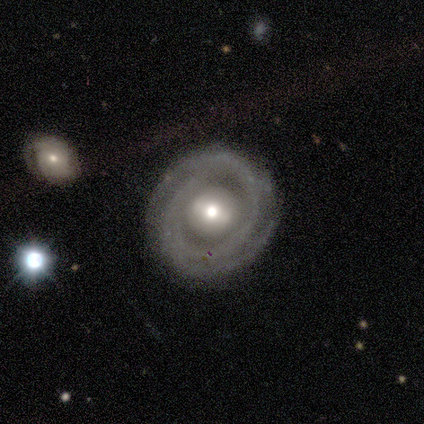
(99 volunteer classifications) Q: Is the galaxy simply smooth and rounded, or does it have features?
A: featured or disk — 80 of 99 (81%).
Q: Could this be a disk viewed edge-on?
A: no — 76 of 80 (95%).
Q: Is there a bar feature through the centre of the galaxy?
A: weak — 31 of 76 (41%).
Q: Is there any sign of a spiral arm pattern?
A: yes — 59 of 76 (78%).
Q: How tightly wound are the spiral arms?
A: tight — 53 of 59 (90%).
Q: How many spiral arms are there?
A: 2 — 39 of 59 (66%).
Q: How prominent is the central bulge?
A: moderate — 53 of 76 (70%).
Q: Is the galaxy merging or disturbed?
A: none — 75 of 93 (81%).